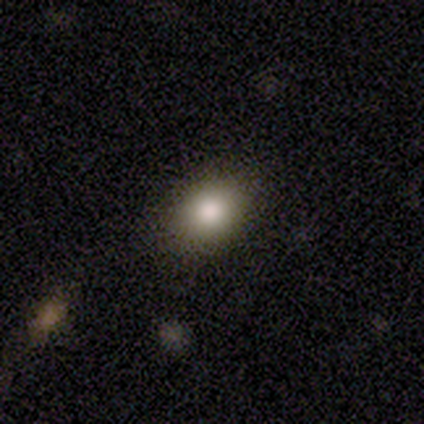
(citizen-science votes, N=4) Smooth or featured: smooth — 75% (featured or disk — 25%)
How rounded: in between — 100%
Merging: none — 100%